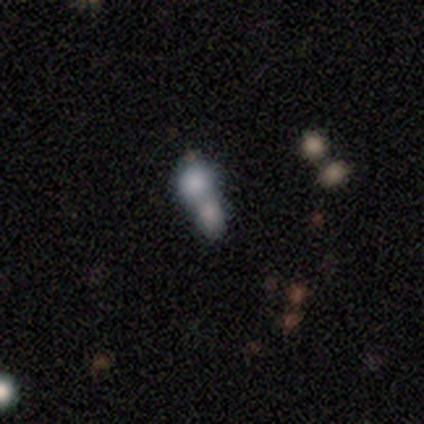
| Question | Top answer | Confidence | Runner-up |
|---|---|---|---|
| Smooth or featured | smooth | 80% | featured or disk (20%) |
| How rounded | in between | 75% | cigar-shaped (25%) |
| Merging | merger | 100% | — |